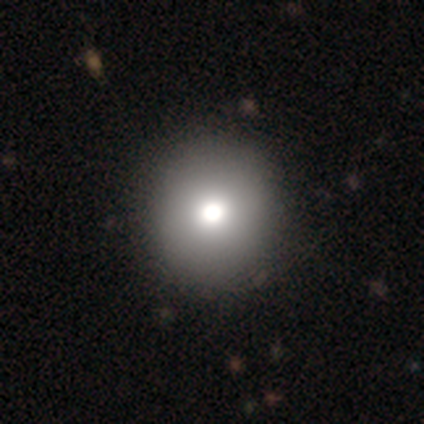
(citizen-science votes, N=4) This appears to be a smooth galaxy with no disk features (75%) that is round (100%). Merging: none (100%).